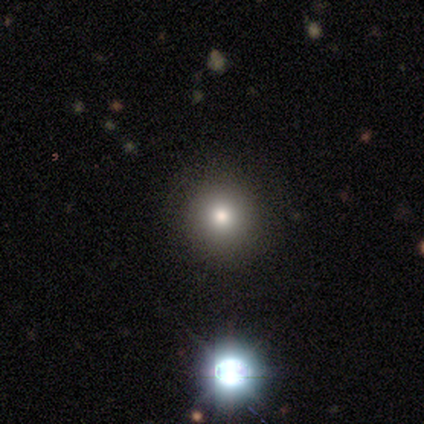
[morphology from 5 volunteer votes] This is likely a smooth galaxy (60%). How rounded: likely round (67%). Merging: likely none (75%).